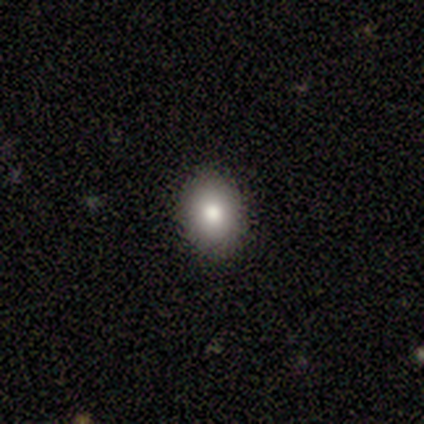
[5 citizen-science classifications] Q: Smooth or featured?
A: smooth (40%); tied with: star or artifact (40%)
Q: How rounded?
A: in between (100%)
Q: Merging?
A: none (100%)